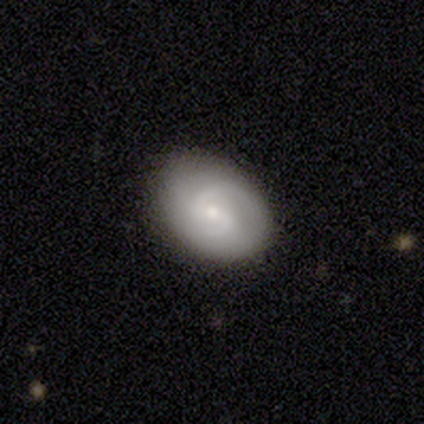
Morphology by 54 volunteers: Smooth or featured: featured or disk — 72% (smooth — 20%)
Edge-on disk: no — 100%
Bar: weak — 54% (no — 33%)
Spiral arms: yes — 92% (no — 8%)
Spiral winding: medium — 58% (tight — 33%)
Spiral arm count: 2 — 75% (can't tell — 14%)
Bulge size: small — 51% (moderate — 38%)
Merging: none — 74% (minor disturbance — 18%)